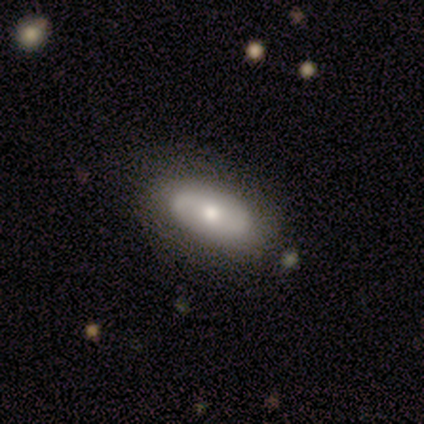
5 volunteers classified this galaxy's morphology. type=featured or disk (80%); edge-on=no (100%); bar=no (50%); spiral arms=yes (50%, tied with no); winding=tight (50%, tied with loose); arm count=2 (100%); bulge=moderate (50%, tied with small); merging=none (40%, tied with minor disturbance).